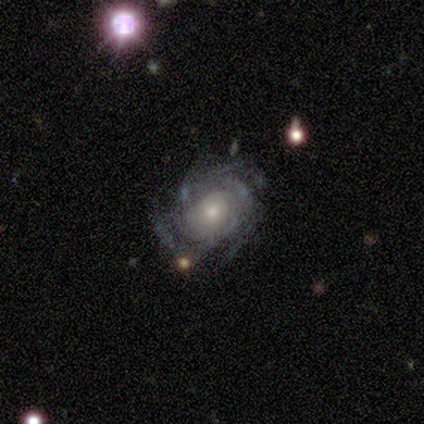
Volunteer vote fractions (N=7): This is clearly a featured or disk galaxy (86%). It is clearly not viewed edge-on (83%). Bar: clearly no (80%). Spiral arm pattern: clearly yes (100%). Spiral arm count: likely can't tell (60%). Spiral winding: marginally tight (40%, tied with medium). Central bulge: likely small (60%). Merging: clearly none (100%).